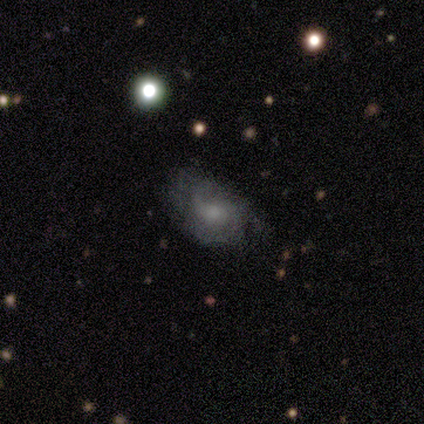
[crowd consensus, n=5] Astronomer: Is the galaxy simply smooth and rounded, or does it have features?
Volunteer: featured or disk — 80%.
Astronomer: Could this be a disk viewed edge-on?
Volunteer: no — 100%.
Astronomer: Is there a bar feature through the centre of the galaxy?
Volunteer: weak — 50%, tied with no at 50%.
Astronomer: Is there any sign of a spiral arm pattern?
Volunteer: yes — 100%.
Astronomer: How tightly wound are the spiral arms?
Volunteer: medium — 75%.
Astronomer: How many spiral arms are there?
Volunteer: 2 — 50%.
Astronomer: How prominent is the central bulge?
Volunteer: moderate — 75%.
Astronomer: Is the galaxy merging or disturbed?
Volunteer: minor disturbance — 40%, tied with major disturbance at 40%.